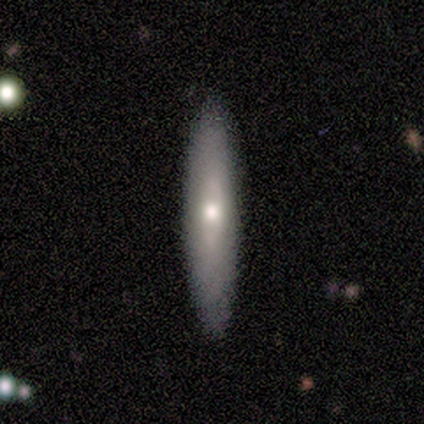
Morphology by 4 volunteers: This appears to be a featured or disk galaxy (75%) viewed edge-on (100%) with a rounded central bulge (100%). Merging: none (75%).